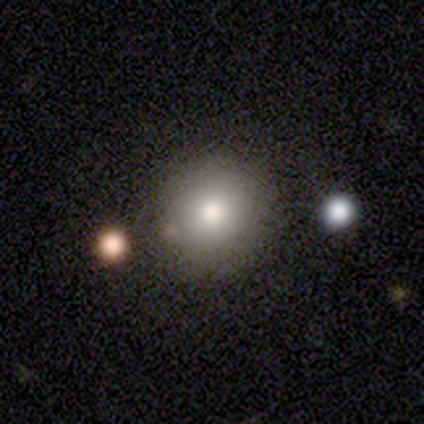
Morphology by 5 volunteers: Consensus on every question: smooth or featured — smooth (100%); how rounded — round (100%); merging — none (100%).